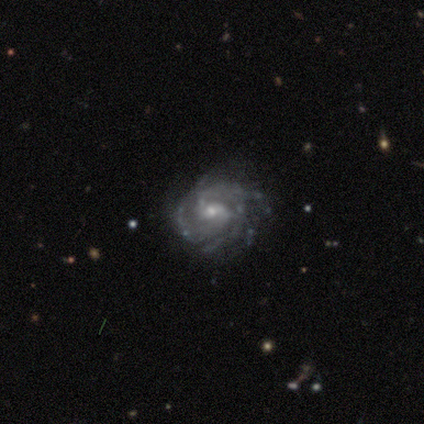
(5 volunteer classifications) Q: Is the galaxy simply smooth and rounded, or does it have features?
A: featured or disk — 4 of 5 (80%).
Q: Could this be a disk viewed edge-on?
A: no — 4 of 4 (100%).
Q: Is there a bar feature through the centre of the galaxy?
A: no — 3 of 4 (75%).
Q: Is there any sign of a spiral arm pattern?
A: yes — 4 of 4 (100%).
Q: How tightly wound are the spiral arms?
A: tight — 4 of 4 (100%).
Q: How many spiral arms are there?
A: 4 — 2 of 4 (50%).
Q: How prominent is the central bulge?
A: small — 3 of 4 (75%).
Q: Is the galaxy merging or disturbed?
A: none — 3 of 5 (60%).